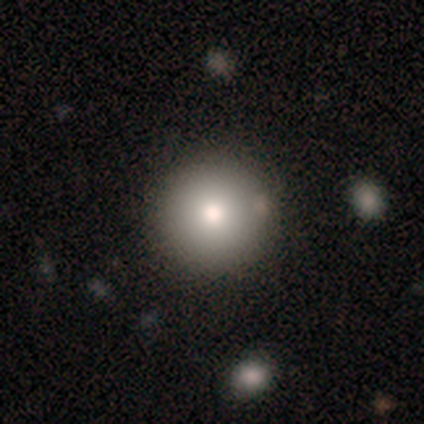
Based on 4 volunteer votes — This is possibly a smooth galaxy (50%). How rounded: clearly round (100%). Merging: marginally none (33%, tied with minor disturbance and major disturbance).